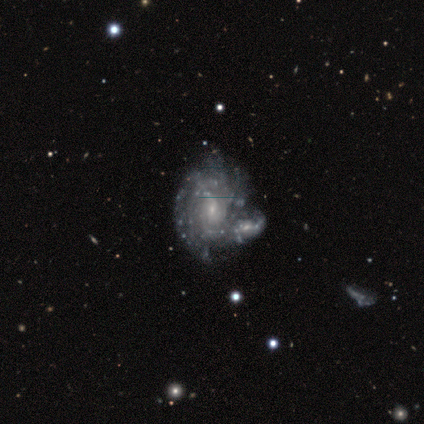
A featured or disk galaxy (100%) with no bar (60%), tight (80%) spiral arms (100%) and a small central bulge (60%).

Vote fractions:
- Smooth or featured? featured or disk: 100% / smooth: 0% / star or artifact: 0%
- Edge-on disk? no: 100% / yes: 0%
- Bar? no: 60% / weak: 40% / strong: 0%
- Spiral arms? yes: 100% / no: 0%
- Spiral winding? tight: 80% / medium: 20% / loose: 0%
- Spiral arm count? can't tell: 40% / 1: 20% / 4: 20% / more than 4: 20% / 2: 0% / 3: 0%
- Bulge size? small: 60% / moderate: 20% / none: 20% / dominant: 0% / large: 0%
- Merging? none: 60% / minor disturbance: 20% / merger: 20% / major disturbance: 0%